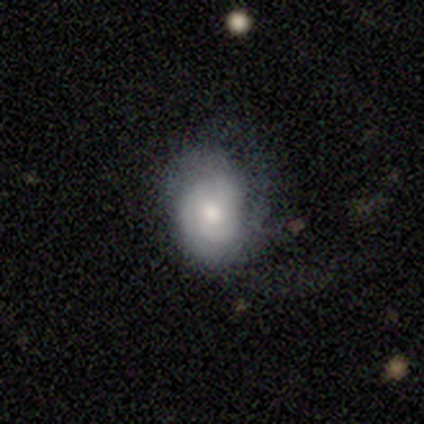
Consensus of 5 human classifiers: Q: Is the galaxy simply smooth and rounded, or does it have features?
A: smooth — 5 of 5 (100%).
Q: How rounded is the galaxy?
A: round — 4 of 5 (80%).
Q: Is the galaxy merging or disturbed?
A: none — 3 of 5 (60%).